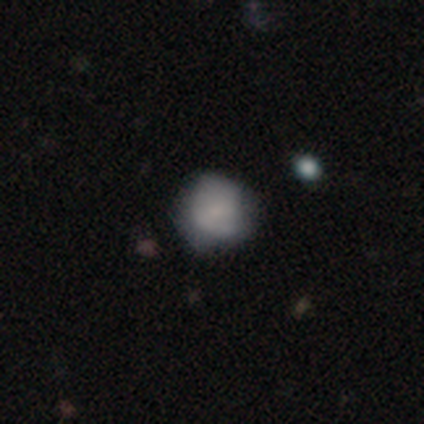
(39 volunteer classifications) Smooth or featured? 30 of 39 (77%) said smooth. How rounded? 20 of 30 (67%) said round. Merging? 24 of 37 (65%) said none.